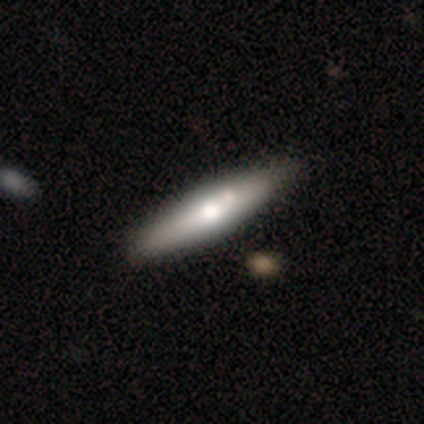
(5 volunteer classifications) A featured or disk galaxy (60%) viewed edge-on (67%) with a rounded central bulge (100%).

Vote fractions:
- Smooth or featured? featured or disk: 60% / smooth: 40% / star or artifact: 0%
- Edge-on disk? yes: 67% / no: 33%
- Edge-on bulge? rounded: 100% / boxy: 0% / none: 0%
- Merging? none: 80% / minor disturbance: 20% / major disturbance: 0% / merger: 0%